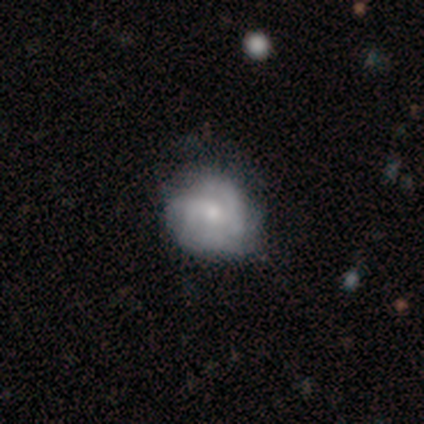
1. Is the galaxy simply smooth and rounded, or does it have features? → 100% featured or disk, 0% smooth, 0% star or artifact.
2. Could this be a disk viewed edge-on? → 100% no, 0% yes.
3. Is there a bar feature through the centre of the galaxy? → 40% strong (tied), 40% no (tied), 20% weak.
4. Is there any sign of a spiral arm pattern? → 80% yes, 20% no.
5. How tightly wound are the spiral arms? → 50% tight, 25% medium, 25% loose.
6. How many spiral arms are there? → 75% 2, 25% can't tell, 0% 1, 0% 3, 0% 4, 0% more than 4.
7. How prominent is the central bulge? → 60% small, 20% large, 20% moderate, 0% dominant, 0% none.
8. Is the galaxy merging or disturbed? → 60% none, 20% minor disturbance, 20% major disturbance, 0% merger.